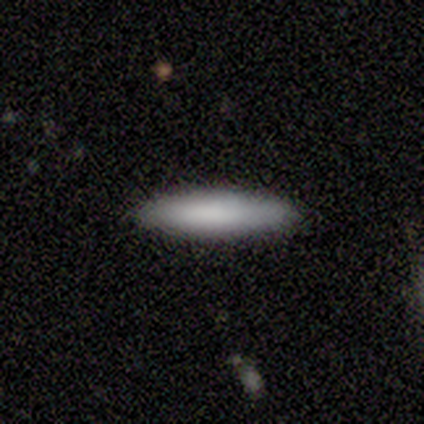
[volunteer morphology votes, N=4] smooth_or_featured: smooth (p=1.00)
how_rounded: cigar-shaped (p=0.75) [alt: in between p=0.25]
merging: none (p=1.00)